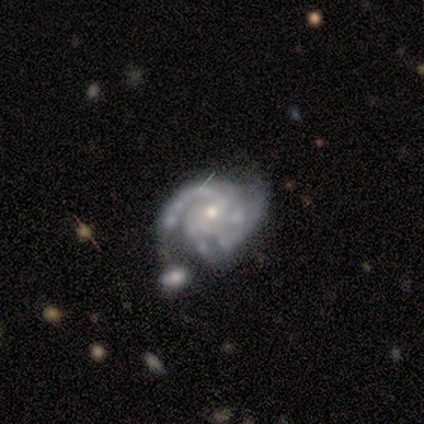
A featured or disk galaxy (100%) with no bar (80%), 3 (60%) medium (60%) spiral arms (100%) and a moderate central bulge (60%). Merging: minor disturbance (40%, tied with merger).